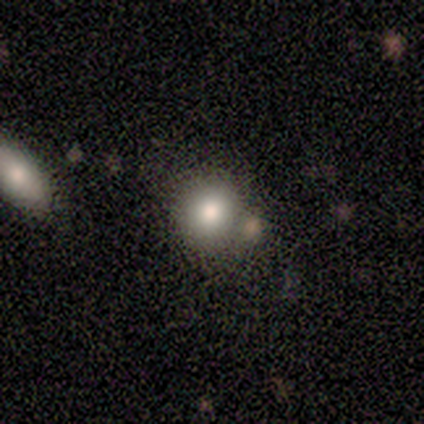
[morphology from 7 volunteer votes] A smooth galaxy with no disk features (71%) that is round (80%). Merging: none (83%).